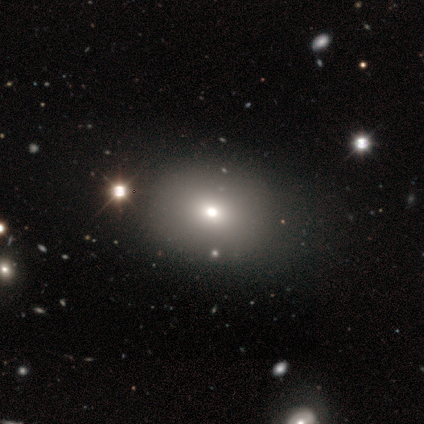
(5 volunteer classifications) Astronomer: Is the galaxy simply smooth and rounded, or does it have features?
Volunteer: star or artifact — 60% (runner-up: smooth, 40%).